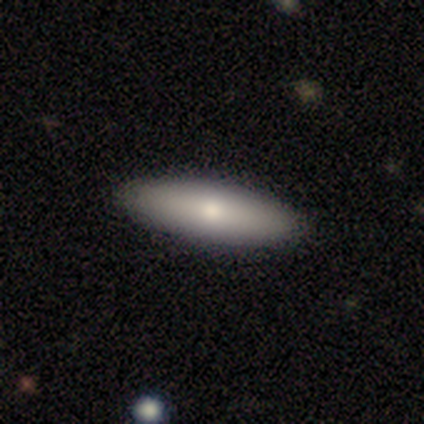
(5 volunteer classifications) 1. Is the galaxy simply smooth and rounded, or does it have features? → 60% smooth, 40% featured or disk, 0% star or artifact.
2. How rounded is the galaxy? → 100% cigar-shaped, 0% round, 0% in between.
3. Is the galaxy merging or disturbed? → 100% none, 0% minor disturbance, 0% major disturbance, 0% merger.